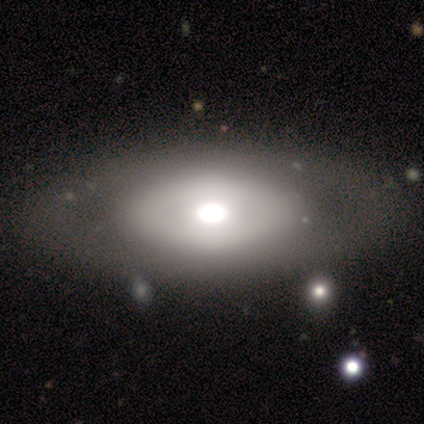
Overall: featured or disk (40%, tied with star or artifact). Edge-on disk: no (100%). Bar: no (100%). Spiral arms: no (100%). Bulge size: large (100%). Merging: none (33%, tied with minor disturbance and major disturbance).